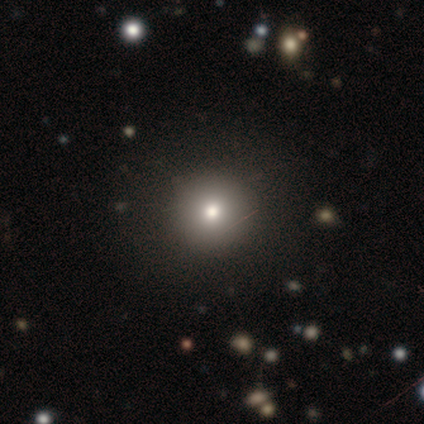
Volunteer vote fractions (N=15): Smooth or featured? 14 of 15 (93%) said smooth. How rounded? 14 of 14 (100%) said round. Merging? 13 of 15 (87%) said none.